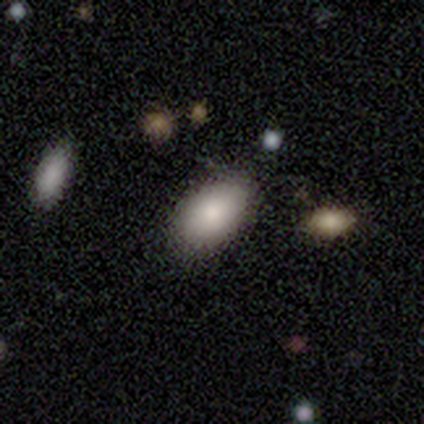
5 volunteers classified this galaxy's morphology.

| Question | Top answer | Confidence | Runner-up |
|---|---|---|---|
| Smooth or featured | smooth | 100% | — |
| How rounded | in between | 80% | round (20%) |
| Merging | none | 100% | — |